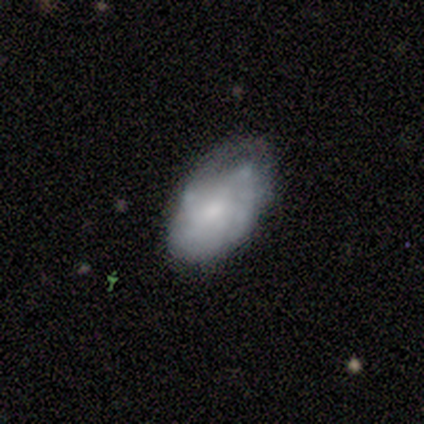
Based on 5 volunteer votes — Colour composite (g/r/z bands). It shows a smooth galaxy with no disk features (60%) that is in between round and cigar-shaped (100%). Merging: none (60%).